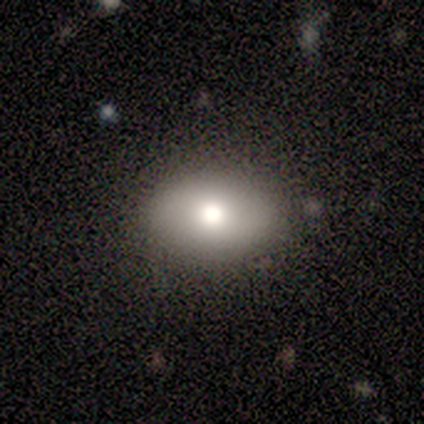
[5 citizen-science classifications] Smooth or featured? 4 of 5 (80%) said smooth. How rounded? 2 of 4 (50%, tied with in between) said round. Merging? 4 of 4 (100%) said none.